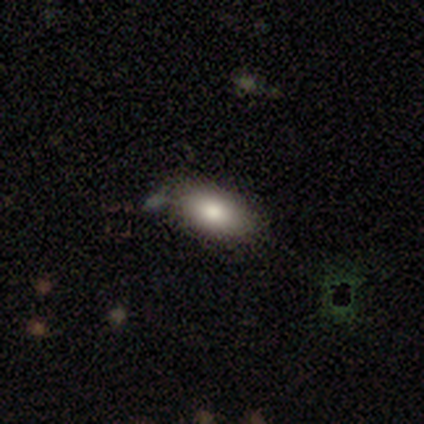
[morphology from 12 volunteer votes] Smooth or featured: smooth — 67% (featured or disk — 25%)
How rounded: in between — 75% (round — 12%)
Merging: none — 82% (minor disturbance — 18%)